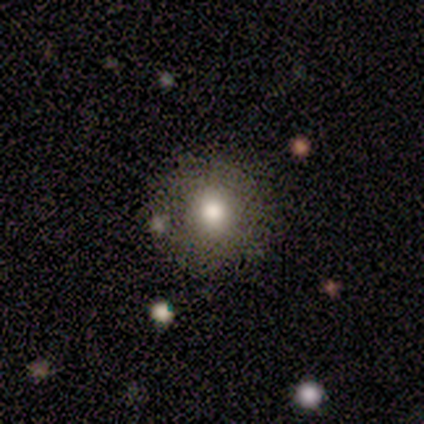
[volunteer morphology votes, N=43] type=smooth (67%); roundness=round (97%); merging=none (76%).